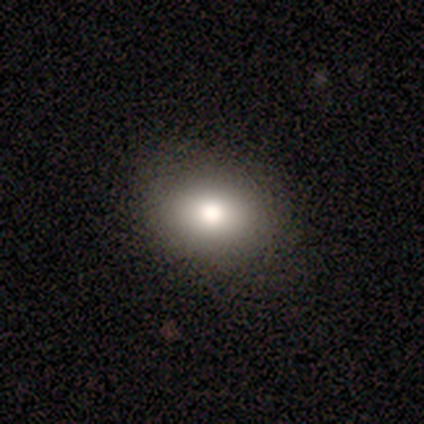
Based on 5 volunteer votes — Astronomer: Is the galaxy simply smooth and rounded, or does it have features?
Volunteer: smooth — 60%.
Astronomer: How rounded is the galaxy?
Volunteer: in between — 67%.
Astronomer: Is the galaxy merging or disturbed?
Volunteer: none — 100%.